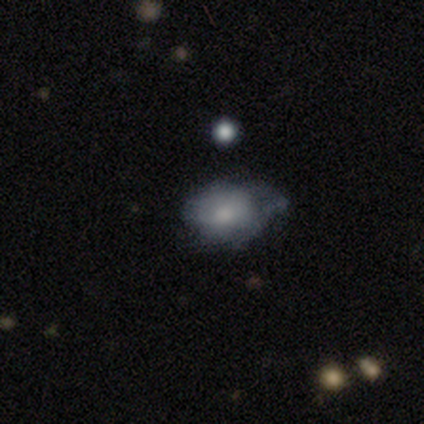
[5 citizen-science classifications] Morphology: type=smooth (80%); roundness=in between (75%); merging=none (50%, tied with minor disturbance).